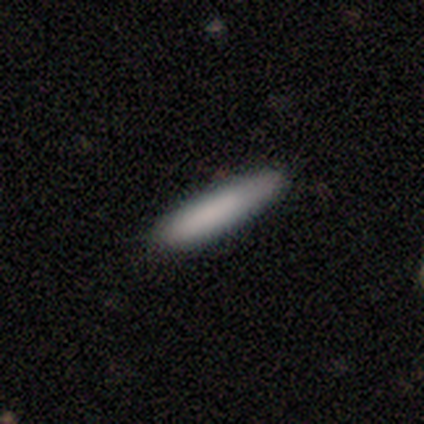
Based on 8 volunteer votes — Smooth or featured? smooth (75%)
How rounded? cigar-shaped (100%)
Merging? none (100%)